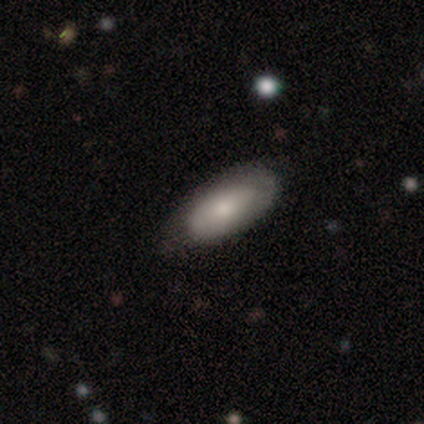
Smooth or featured? smooth (80%)
How rounded? in between (100%)
Merging? none (60%)